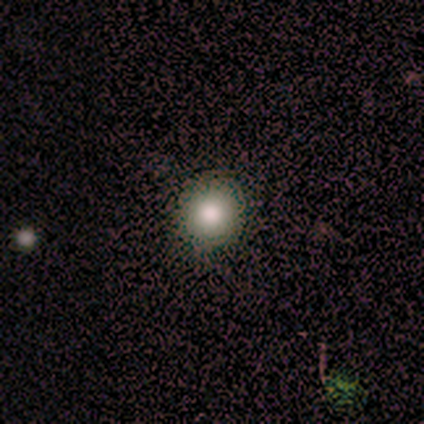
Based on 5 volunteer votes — A smooth galaxy with no disk features (100%) that is round (80%).

Vote fractions:
- Smooth or featured? smooth: 100% / featured or disk: 0% / star or artifact: 0%
- How rounded? round: 80% / in between: 20% / cigar-shaped: 0%
- Merging? none: 100% / minor disturbance: 0% / major disturbance: 0% / merger: 0%